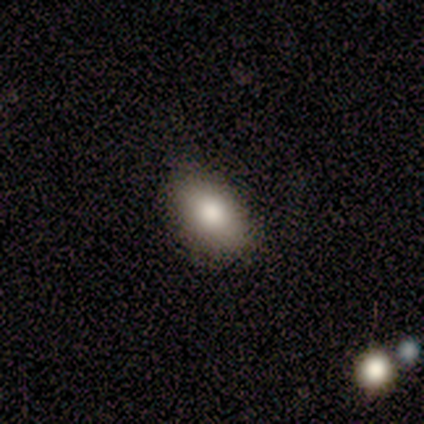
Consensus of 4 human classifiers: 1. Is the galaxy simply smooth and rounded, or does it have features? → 75% smooth, 25% featured or disk, 0% star or artifact.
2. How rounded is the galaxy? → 100% in between, 0% round, 0% cigar-shaped.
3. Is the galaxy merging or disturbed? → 100% none, 0% minor disturbance, 0% major disturbance, 0% merger.